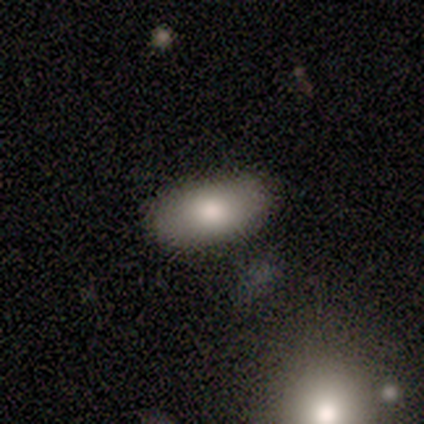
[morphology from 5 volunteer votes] smooth 80%, featured or disk 20%, star or artifact 0%. Down the decision tree: how rounded — in between (100%); merging — none (80%).